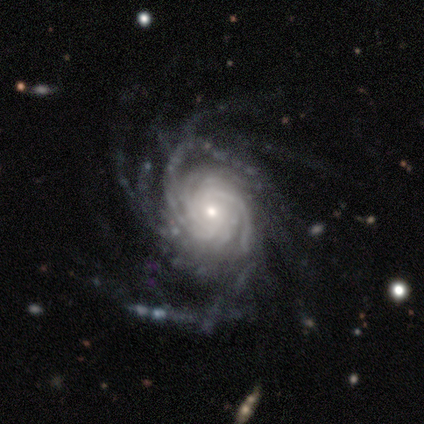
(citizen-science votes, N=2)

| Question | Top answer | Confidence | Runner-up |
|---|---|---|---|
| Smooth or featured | featured or disk | 100% | — |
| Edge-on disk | no | 100% | — |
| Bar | no | 100% | — |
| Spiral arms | yes | 100% | — |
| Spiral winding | medium | 100% | — |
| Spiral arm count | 3 | 50% | tied: can't tell (50%) |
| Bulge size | moderate | 100% | — |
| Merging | major disturbance | 100% | — |